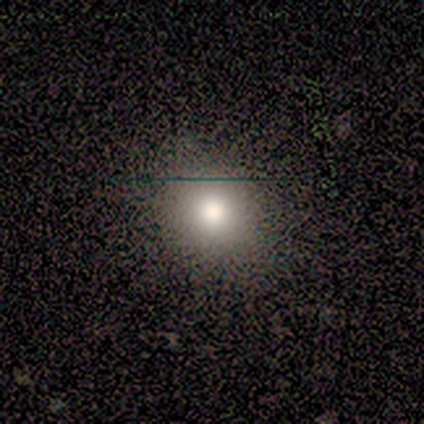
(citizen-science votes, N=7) smooth 86%, star or artifact 14%, featured or disk 0%. Down the decision tree: how rounded — round (83%); merging — none (83%).